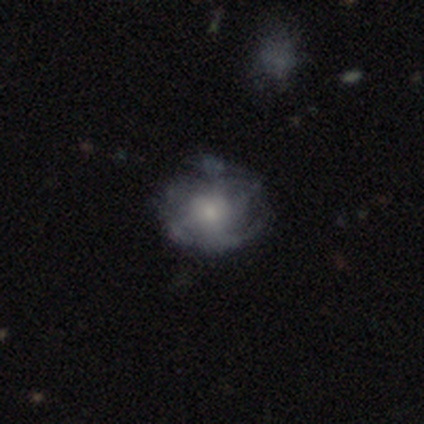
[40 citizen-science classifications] This is likely a featured or disk galaxy (65%). It is clearly not viewed edge-on (96%). Bar: likely no (76%). Spiral arm pattern: likely yes (64%). Spiral arm count: marginally 3 (25%, tied with can't tell). Spiral winding: marginally medium (44%). Central bulge: marginally small (40%). Merging: possibly none (57%).